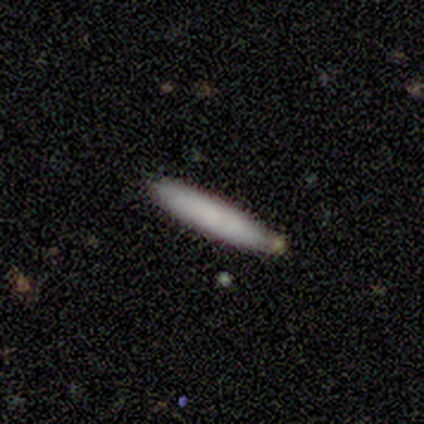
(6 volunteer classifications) Smooth or featured: smooth — 100%
How rounded: cigar-shaped — 100%
Merging: none — 83% (minor disturbance — 17%)